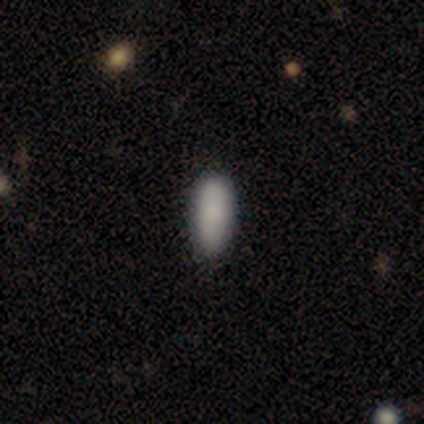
Smooth or featured? smooth (100%)
How rounded? in between (80%)
Merging? none (80%)